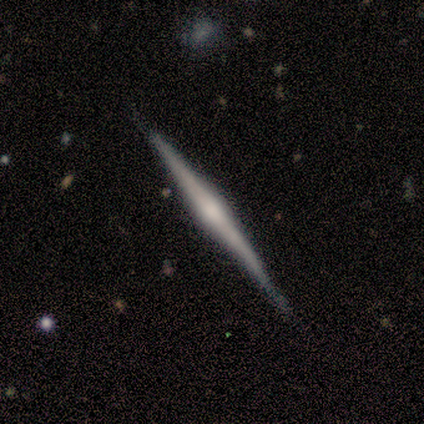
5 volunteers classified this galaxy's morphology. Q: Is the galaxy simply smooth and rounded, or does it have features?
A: featured or disk — 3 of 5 (60%).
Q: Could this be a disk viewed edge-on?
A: yes — 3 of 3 (100%).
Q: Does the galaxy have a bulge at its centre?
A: rounded — 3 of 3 (100%).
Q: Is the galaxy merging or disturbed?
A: none — 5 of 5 (100%).